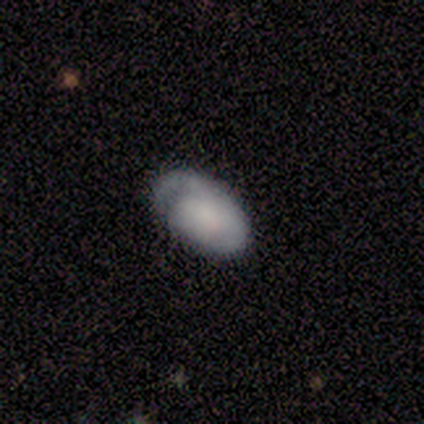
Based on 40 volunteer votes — This is possibly a featured or disk galaxy (55%). It is clearly not viewed edge-on (95%). Bar: clearly no (90%). Spiral arm pattern: clearly yes (86%). Spiral arm count: likely 1 (72%). Spiral winding: likely tight (72%). Central bulge: marginally none (38%). Merging: marginally none (36%).